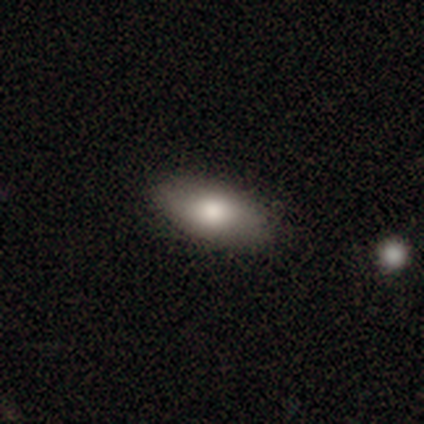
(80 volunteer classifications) smooth_or_featured: smooth (p=0.89) [alt: featured or disk p=0.10]
how_rounded: in between (p=0.93) [alt: cigar-shaped p=0.04]
merging: none (p=0.47) [alt: merger p=0.08]